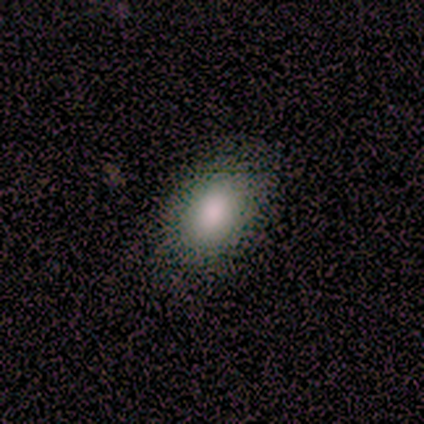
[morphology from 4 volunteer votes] Smooth or featured? 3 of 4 (75%) said smooth. How rounded? 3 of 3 (100%) said in between. Merging? 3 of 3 (100%) said none.